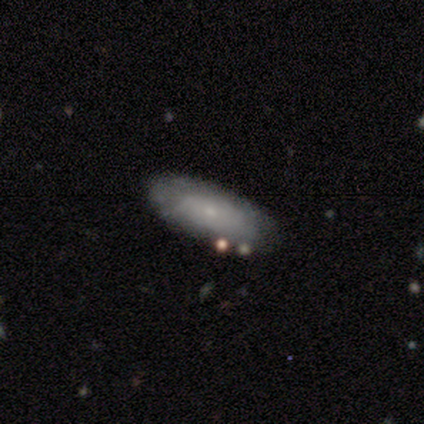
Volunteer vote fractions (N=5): This is clearly a smooth galaxy (80%). How rounded: possibly in between (50%). Merging: likely none (60%).